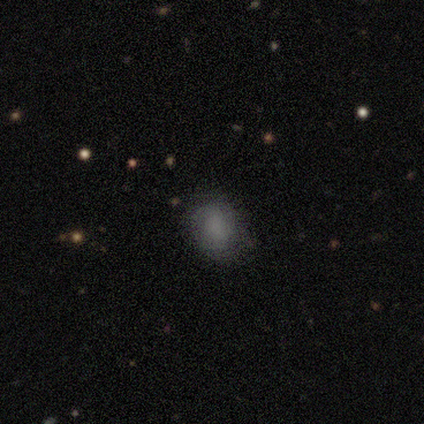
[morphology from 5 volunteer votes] A smooth galaxy with no disk features (100%) that is round (100%). Merging: none (60%).